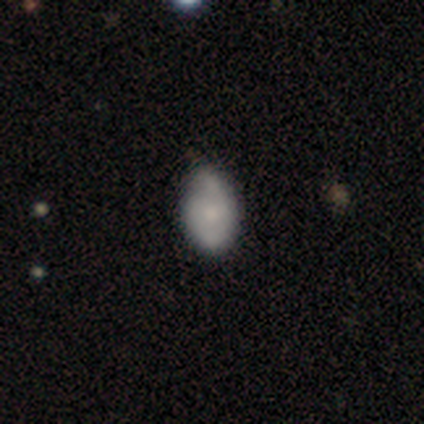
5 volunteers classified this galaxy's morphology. Volunteers were most divided on "merging": none: 60%, minor disturbance: 40%, major disturbance: 0%, merger: 0%. More confident: how rounded — in between (100%); smooth or featured — smooth (80%).